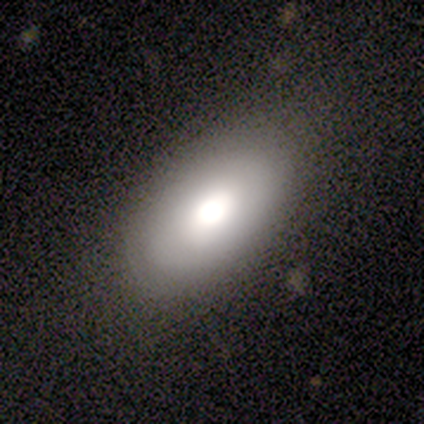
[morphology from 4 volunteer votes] A smooth galaxy with no disk features (50%) that is in between round and cigar-shaped (100%).

Vote fractions:
- Smooth or featured? smooth: 50% / featured or disk: 25% / star or artifact: 25%
- How rounded? in between: 100% / round: 0% / cigar-shaped: 0%
- Merging? none: 67% / minor disturbance: 33% / major disturbance: 0% / merger: 0%